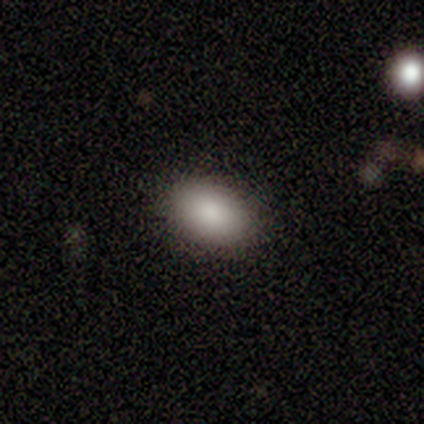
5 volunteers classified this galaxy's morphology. A smooth galaxy with no disk features (100%) that is in between round and cigar-shaped (100%).

Vote fractions:
- Smooth or featured? smooth: 100% / featured or disk: 0% / star or artifact: 0%
- How rounded? in between: 100% / round: 0% / cigar-shaped: 0%
- Merging? none: 100% / minor disturbance: 0% / major disturbance: 0% / merger: 0%